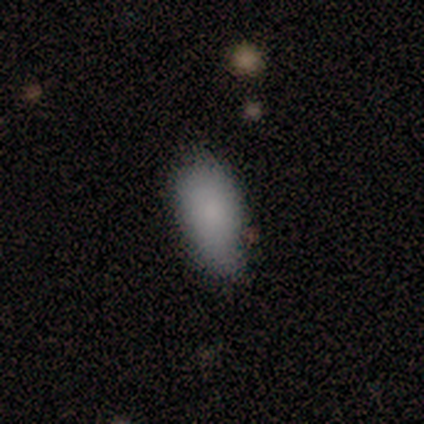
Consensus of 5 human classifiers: Smooth or featured? smooth (100%)
How rounded? in between (100%)
Merging? none (60%)